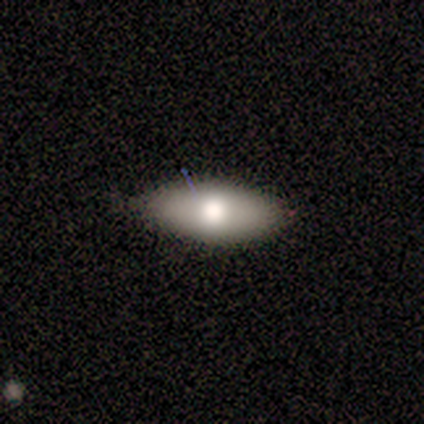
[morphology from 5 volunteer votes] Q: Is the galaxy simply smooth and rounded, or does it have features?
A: smooth — 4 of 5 (80%).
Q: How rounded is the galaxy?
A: in between — 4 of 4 (100%).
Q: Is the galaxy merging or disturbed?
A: none — 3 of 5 (60%).